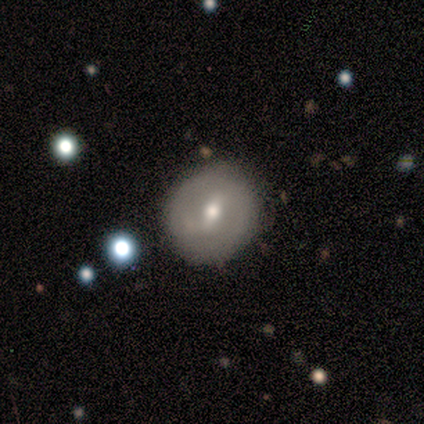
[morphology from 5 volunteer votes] This is clearly a featured or disk galaxy (100%). It is clearly not viewed edge-on (100%). Bar: marginally strong (40%, tied with weak). Spiral arm pattern: likely no (60%). Central bulge: clearly moderate (80%). Merging: clearly none (80%).